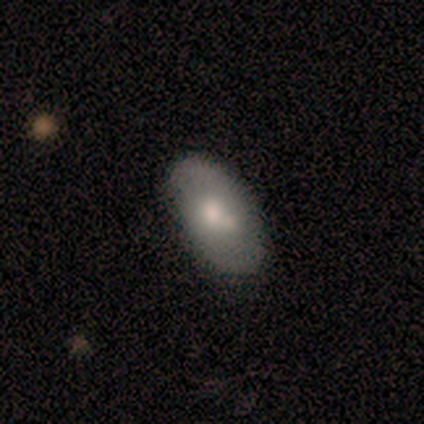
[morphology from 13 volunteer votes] This is possibly a smooth galaxy (54%). How rounded: clearly in between (86%). Merging: possibly none (55%).